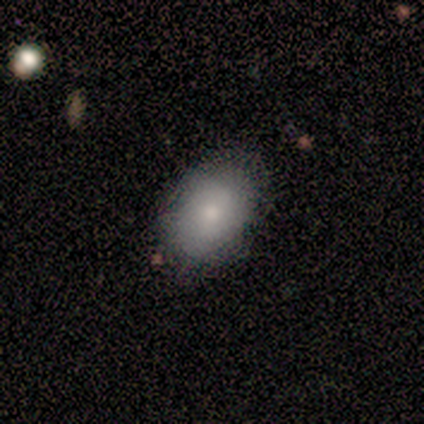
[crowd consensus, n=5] A smooth galaxy with no disk features (100%) that is in between round and cigar-shaped (80%). Merging: none (60%).